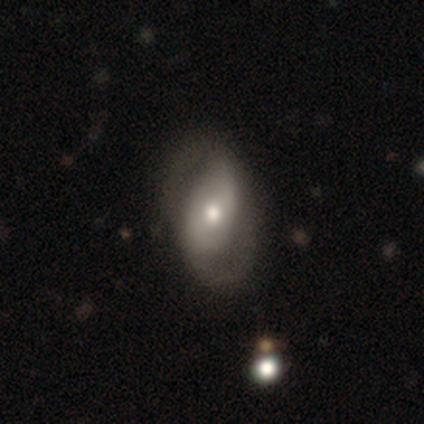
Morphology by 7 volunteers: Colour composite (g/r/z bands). It shows a featured or disk galaxy (71%) with a weak bar (40%, tied with no), 2 (75%) medium (50%) spiral arms (80%) and a small central bulge (60%). Merging: none (67%).